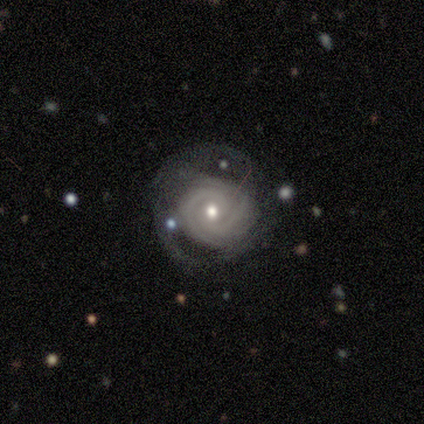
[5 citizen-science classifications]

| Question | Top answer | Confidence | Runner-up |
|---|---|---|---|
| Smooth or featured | featured or disk | 100% | — |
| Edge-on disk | no | 100% | — |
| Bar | no | 60% | weak (40%) |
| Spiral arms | yes | 100% | — |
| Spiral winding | tight | 40% | tied: medium (40%) |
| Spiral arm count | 2 | 40% | tied: more than 4 (40%) |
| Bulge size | moderate | 40% | tied: small (40%) |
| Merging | none | 60% | major disturbance (40%) |